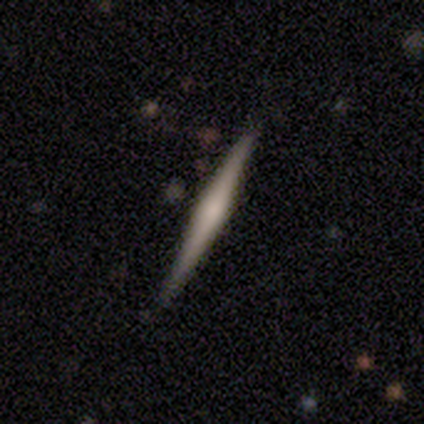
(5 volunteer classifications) smooth_or_featured: smooth (p=0.60) [alt: featured or disk p=0.40]
how_rounded: cigar-shaped (p=1.00)
merging: none (p=1.00)